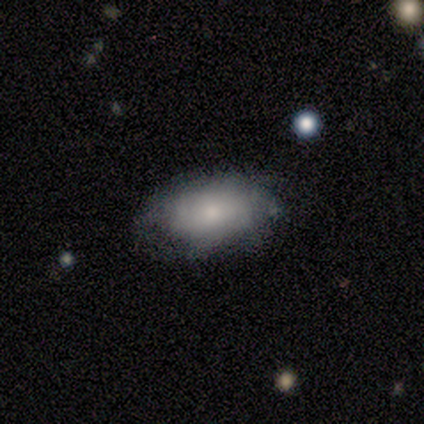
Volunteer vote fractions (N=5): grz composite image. It shows a smooth galaxy with no disk features (80%) that is in between round and cigar-shaped (75%). Merging: none (80%).